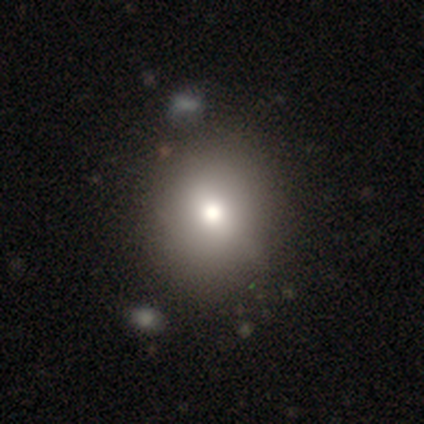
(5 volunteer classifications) A smooth galaxy with no disk features (60%) that is round (67%). Merging: none (75%).